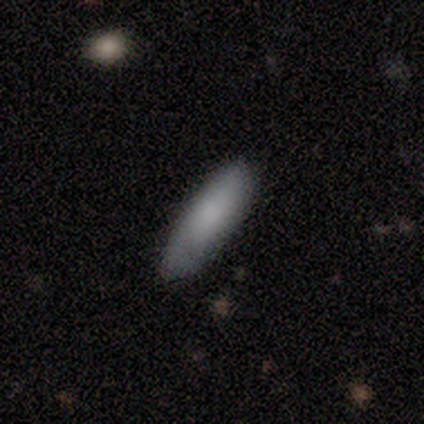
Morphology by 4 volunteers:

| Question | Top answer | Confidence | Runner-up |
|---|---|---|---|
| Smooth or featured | smooth | 100% | — |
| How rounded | cigar-shaped | 75% | in between (25%) |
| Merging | none | 100% | — |